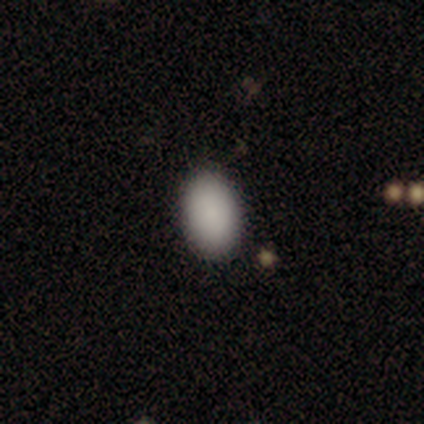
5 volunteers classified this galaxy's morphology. Q: Smooth or featured?
A: smooth (100%)
Q: How rounded?
A: in between (100%)
Q: Merging?
A: none (100%)